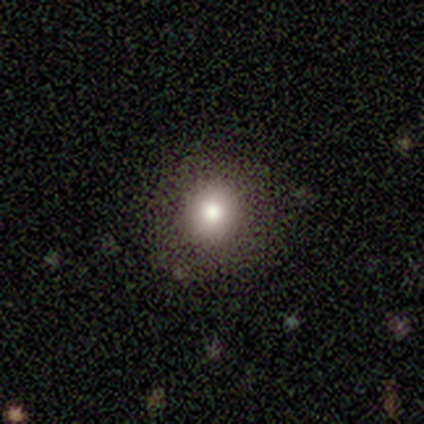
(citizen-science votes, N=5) Overall: smooth (80%). How rounded: round (100%). Merging: none (100%).